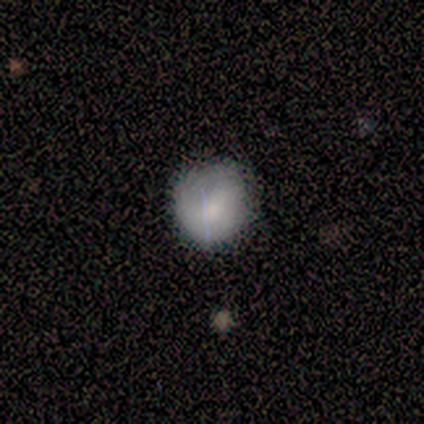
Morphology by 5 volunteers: Q: Smooth or featured?
A: smooth (80%); runner-up: featured or disk (20%)
Q: How rounded?
A: round (100%)
Q: Merging?
A: none (40%); tied with: minor disturbance (40%)